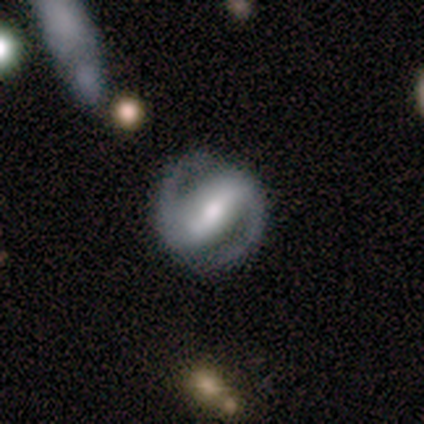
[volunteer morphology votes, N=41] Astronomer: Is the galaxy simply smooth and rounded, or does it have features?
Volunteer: featured or disk — 98%.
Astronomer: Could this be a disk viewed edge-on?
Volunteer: no — 98%.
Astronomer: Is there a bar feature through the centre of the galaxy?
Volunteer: strong — 79%.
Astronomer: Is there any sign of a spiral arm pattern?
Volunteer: yes — 100%.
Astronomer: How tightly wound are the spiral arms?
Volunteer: medium — 46% (runner-up: tight, 38%).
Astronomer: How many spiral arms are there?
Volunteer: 2 — 97%.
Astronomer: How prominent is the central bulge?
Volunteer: moderate — 62%.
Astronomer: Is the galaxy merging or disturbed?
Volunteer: none — 90%.